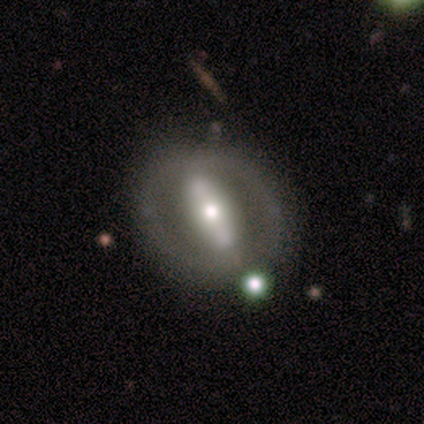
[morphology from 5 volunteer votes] A featured or disk galaxy (80%) with no bar (67%), no spiral arms (67%) and a large central bulge (33%, tied with moderate and small).

Vote fractions:
- Smooth or featured? featured or disk: 80% / smooth: 20% / star or artifact: 0%
- Edge-on disk? no: 75% / yes: 25%
- Bar? no: 67% / strong: 33% / weak: 0%
- Spiral arms? no: 67% / yes: 33%
- Bulge size? large: 33% (tied) / moderate: 33% (tied) / small: 33% (tied) / dominant: 0% / none: 0%
- Merging? none: 100% / minor disturbance: 0% / major disturbance: 0% / merger: 0%